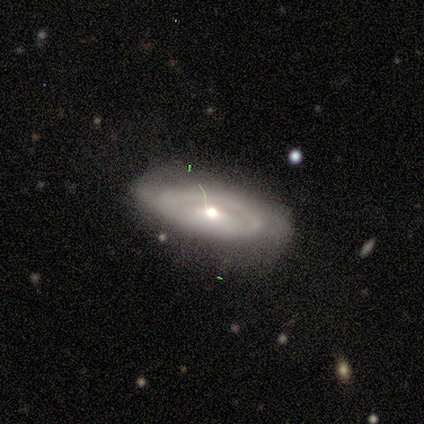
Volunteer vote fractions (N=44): This appears to be a featured or disk galaxy (68%) with no bar (68%), medium (53%) spiral arms (60%) and a moderate central bulge (44%). Merging: none (54%).